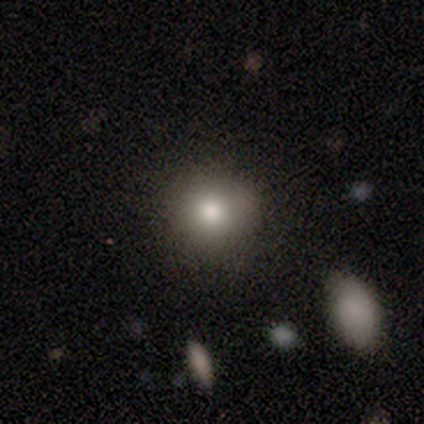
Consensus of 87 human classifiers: smooth_or_featured: smooth (p=0.79) [alt: featured or disk p=0.14]
how_rounded: round (p=0.81) [alt: in between p=0.19]
merging: none (p=0.83) [alt: minor disturbance p=0.09]